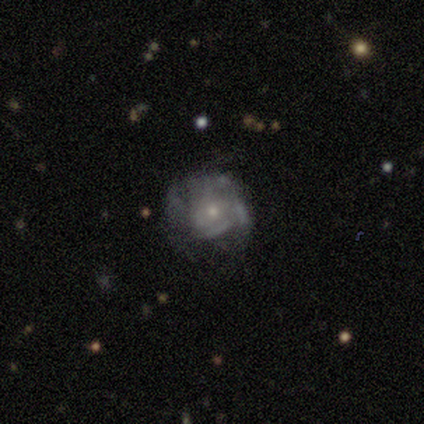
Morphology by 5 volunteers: Q: Smooth or featured?
A: featured or disk (60%); runner-up: smooth (40%)
Q: Edge-on disk?
A: no (100%)
Q: Bar?
A: no (100%)
Q: Spiral arms?
A: yes (67%); runner-up: no (33%)
Q: Spiral winding?
A: loose (100%)
Q: Spiral arm count?
A: can't tell (100%)
Q: Bulge size?
A: small (100%)
Q: Merging?
A: none (80%); runner-up: minor disturbance (20%)